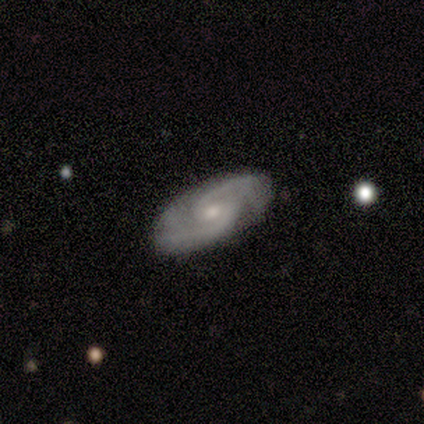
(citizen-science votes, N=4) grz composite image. It shows a featured or disk galaxy (100%) with no bar (100%), 2 (67%) medium (67%) spiral arms (100%) and a moderate central bulge (100%). Merging: none (100%).